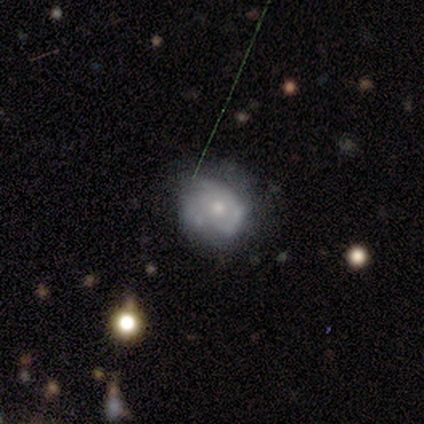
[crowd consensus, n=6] smooth_or_featured: featured or disk (p=0.83) [alt: smooth p=0.17]
disk_edge_on: no (p=1.00)
bar: no (p=0.80) [alt: weak p=0.20]
has_spiral_arms: yes (p=0.60) [alt: no p=0.40]
spiral_winding: tight (p=1.00)
spiral_arm_count: can't tell (p=1.00)
bulge_size: moderate (p=0.60) [alt: small p=0.20]
merging: none (p=0.67) [alt: minor disturbance p=0.33]